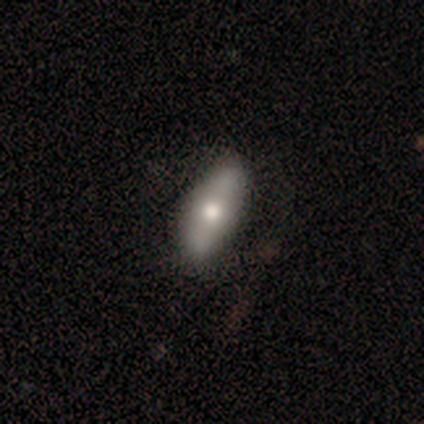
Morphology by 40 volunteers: Smooth or featured? 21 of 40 (52%) said smooth. How rounded? 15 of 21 (71%) said in between. Merging? 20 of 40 (50%) said none.